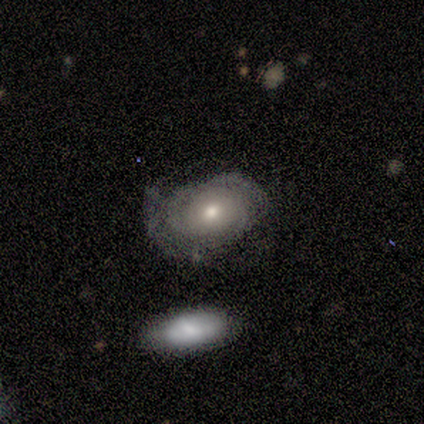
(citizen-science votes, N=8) Q: Smooth or featured?
A: smooth (50%); tied with: featured or disk (50%)
Q: How rounded?
A: in between (100%)
Q: Merging?
A: none (50%); runner-up: minor disturbance (25%)